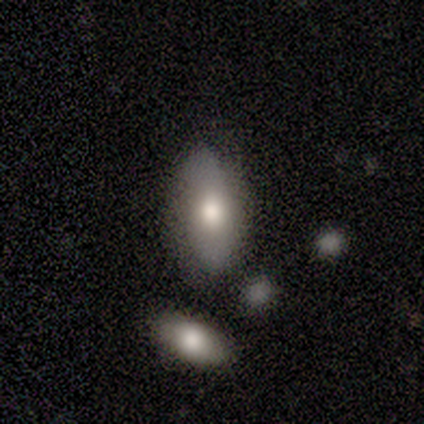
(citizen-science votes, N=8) Smooth or featured? 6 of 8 (75%) said smooth. How rounded? 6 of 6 (100%) said in between. Merging? 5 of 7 (71%) said none.